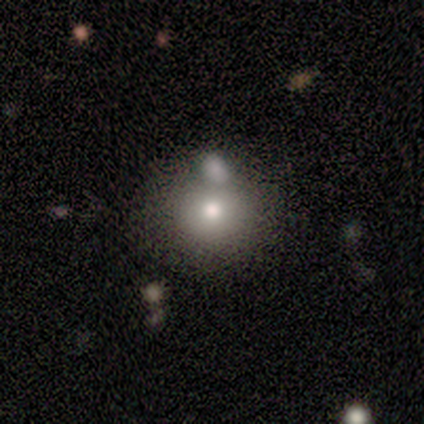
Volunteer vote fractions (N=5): smooth_or_featured: smooth (p=0.80) [alt: featured or disk p=0.20]
how_rounded: round (p=1.00)
merging: none (p=0.60) [alt: merger p=0.40]